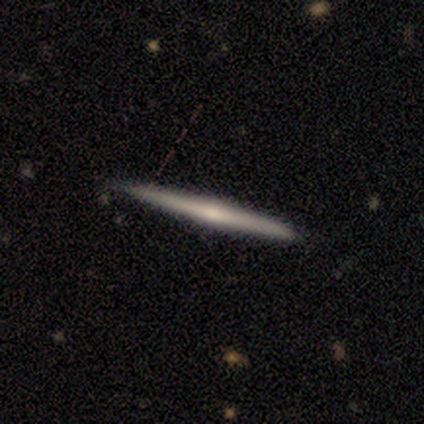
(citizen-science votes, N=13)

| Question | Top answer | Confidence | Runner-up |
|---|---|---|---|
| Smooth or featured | featured or disk | 69% | smooth (31%) |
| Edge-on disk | yes | 100% | — |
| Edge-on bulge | rounded | 78% | none (22%) |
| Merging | none | 85% | minor disturbance (15%) |